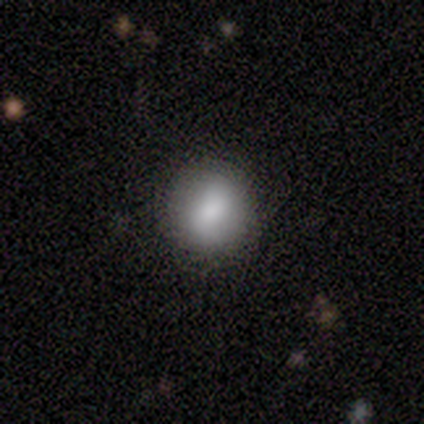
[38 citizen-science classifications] This appears to be a smooth galaxy with no disk features (68%) that is round (81%). Merging: none (89%).